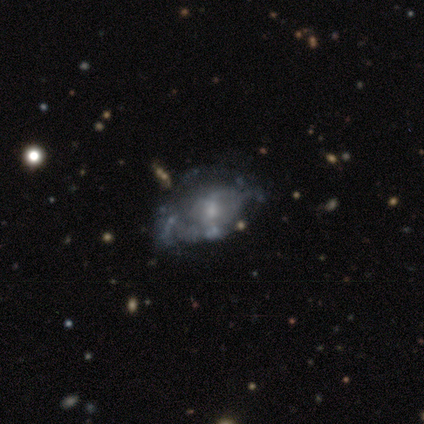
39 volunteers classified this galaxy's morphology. smooth_or_featured: featured or disk (p=0.77) [alt: smooth p=0.18]
disk_edge_on: no (p=1.00)
bar: no (p=0.77) [alt: weak p=0.20]
has_spiral_arms: no (p=0.73) [alt: yes p=0.27]
bulge_size: small (p=0.47) [alt: moderate p=0.33]
merging: none (p=0.41) [alt: minor disturbance p=0.30]